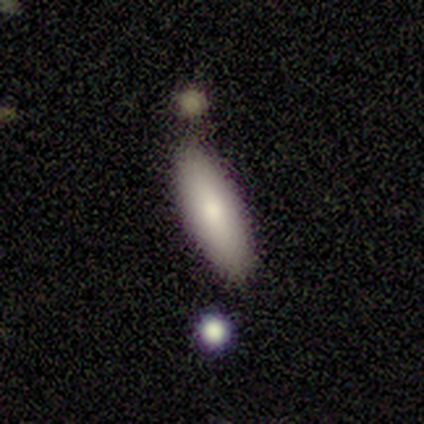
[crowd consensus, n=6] A smooth galaxy with no disk features (100%) that is in between round and cigar-shaped (50%, tied with cigar-shaped). Merging: none (83%).